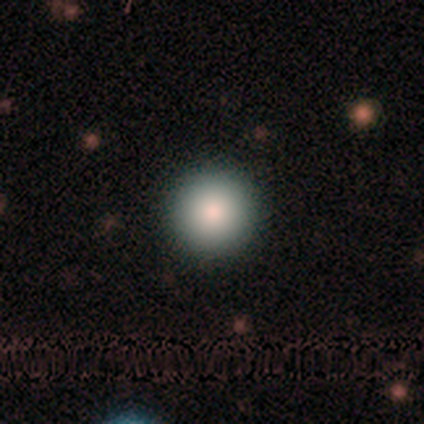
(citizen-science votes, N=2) Smooth or featured?
  - smooth: 100% *
  - featured or disk: 0%
  - star or artifact: 0%
How rounded?
  - round: 50% * (tied)
  - in between: 50% * (tied)
  - cigar-shaped: 0%
Merging?
  - none: 50% * (tied)
  - minor disturbance: 50% * (tied)
  - major disturbance: 0%
  - merger: 0%